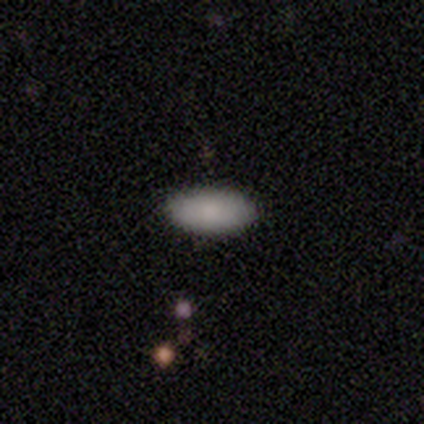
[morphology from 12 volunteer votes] A smooth galaxy with no disk features (75%) that is in between round and cigar-shaped (89%).

Vote fractions:
- Smooth or featured? smooth: 75% / star or artifact: 17% / featured or disk: 8%
- How rounded? in between: 89% / cigar-shaped: 11% / round: 0%
- Merging? none: 90% / major disturbance: 10% / minor disturbance: 0% / merger: 0%